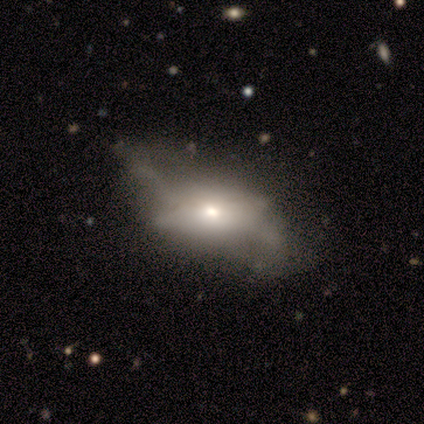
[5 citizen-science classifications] Smooth or featured? 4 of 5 (80%) said featured or disk. Edge-on disk? 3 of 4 (75%) said no. Bar? 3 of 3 (100%) said no. Spiral arms? 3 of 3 (100%) said no. Bulge size? 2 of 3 (67%) said moderate. Merging? 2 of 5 (40%, tied with major disturbance) said minor disturbance.